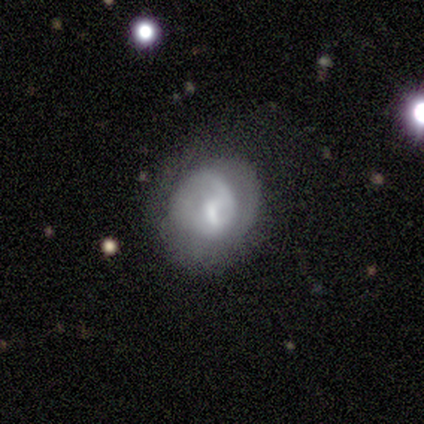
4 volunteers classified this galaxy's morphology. Smooth or featured? 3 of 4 (75%) said featured or disk. Edge-on disk? 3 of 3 (100%) said no. Bar? 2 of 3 (67%) said weak. Spiral arms? 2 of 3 (67%) said yes. Spiral winding? 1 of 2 (50%, tied with loose) said medium. Spiral arm count? 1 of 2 (50%, tied with can't tell) said 1. Bulge size? 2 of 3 (67%) said small. Merging? 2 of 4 (50%) said none.